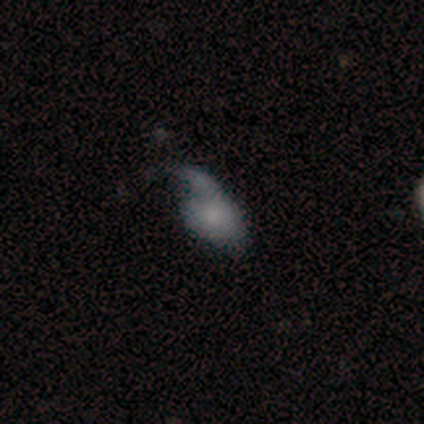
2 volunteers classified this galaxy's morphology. Volunteers were most divided on "smooth or featured" (2-way tie): smooth: 50%, featured or disk: 50%, star or artifact: 0%; "merging" (2-way tie): none: 50%, major disturbance: 50%, minor disturbance: 0%, merger: 0%. More confident: how rounded — in between (100%).